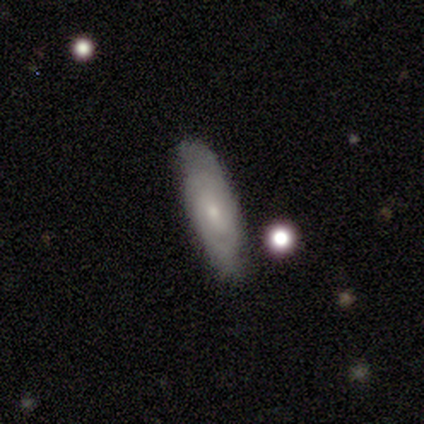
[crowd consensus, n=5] A smooth galaxy with no disk features (80%) that is in between round and cigar-shaped (75%).

Vote fractions:
- Smooth or featured? smooth: 80% / featured or disk: 20% / star or artifact: 0%
- How rounded? in between: 75% / cigar-shaped: 25% / round: 0%
- Merging? none: 100% / minor disturbance: 0% / major disturbance: 0% / merger: 0%